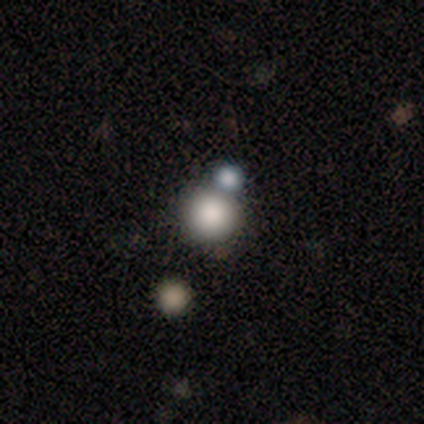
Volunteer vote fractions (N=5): A smooth galaxy with no disk features (80%) that is round (75%).

Vote fractions:
- Smooth or featured? smooth: 80% / star or artifact: 20% / featured or disk: 0%
- How rounded? round: 75% / in between: 25% / cigar-shaped: 0%
- Merging? none: 75% / merger: 25% / minor disturbance: 0% / major disturbance: 0%